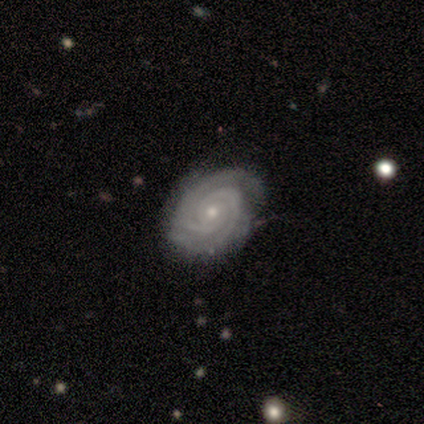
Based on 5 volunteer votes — Smooth or featured? 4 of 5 (80%) said featured or disk. Edge-on disk? 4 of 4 (100%) said no. Bar? 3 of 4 (75%) said no. Spiral arms? 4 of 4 (100%) said yes. Spiral winding? 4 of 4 (100%) said tight. Spiral arm count? 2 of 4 (50%) said 2. Bulge size? 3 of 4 (75%) said small. Merging? 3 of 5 (60%) said minor disturbance.